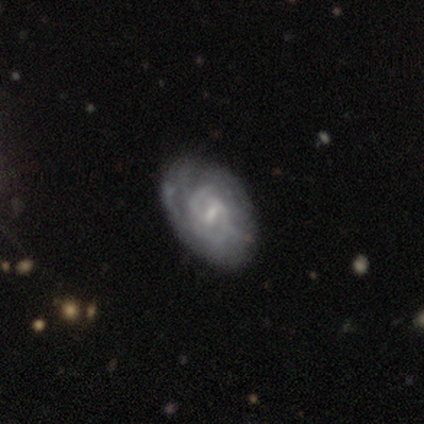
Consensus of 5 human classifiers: Q: Smooth or featured?
A: featured or disk (80%); runner-up: star or artifact (20%)
Q: Edge-on disk?
A: no (100%)
Q: Bar?
A: weak (75%); runner-up: strong (25%)
Q: Spiral arms?
A: yes (100%)
Q: Spiral winding?
A: tight (75%); runner-up: medium (25%)
Q: Spiral arm count?
A: 2 (75%); runner-up: can't tell (25%)
Q: Bulge size?
A: moderate (50%); tied with: small (50%)
Q: Merging?
A: none (50%); tied with: minor disturbance (50%)